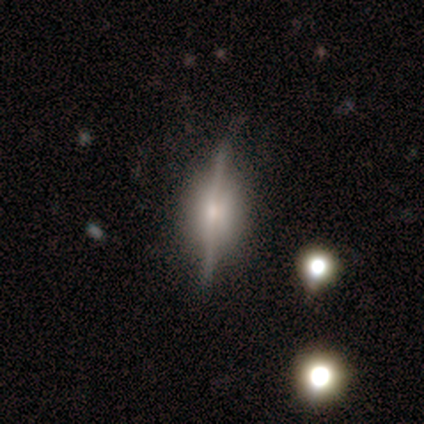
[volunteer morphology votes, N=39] smooth-or-featured: featured or disk: 87% | star or artifact: 8% | smooth: 5%
  disk-edge-on: yes: 88% | no: 12%
    edge-on-bulge: rounded: 63% | boxy: 30% | none: 7%
  merging: none: 92% | minor disturbance: 6% | merger: 3% | major disturbance: 0%